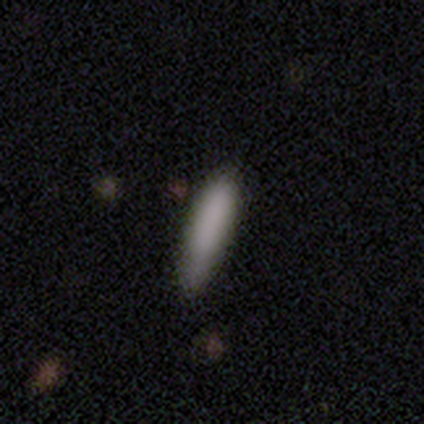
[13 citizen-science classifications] Smooth or featured? 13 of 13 (100%) said smooth. How rounded? 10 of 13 (77%) said cigar-shaped. Merging? 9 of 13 (69%) said none.